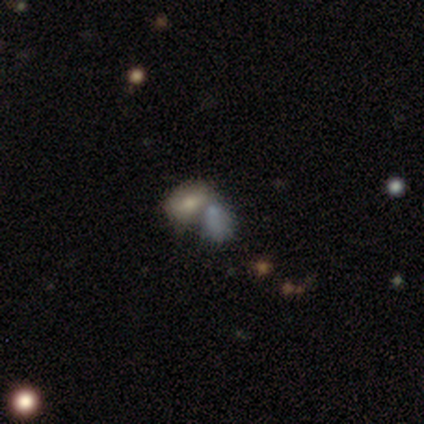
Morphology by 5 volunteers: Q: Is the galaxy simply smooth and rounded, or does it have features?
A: smooth — 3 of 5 (60%).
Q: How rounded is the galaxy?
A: in between — 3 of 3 (100%).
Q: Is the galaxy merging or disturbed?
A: merger — 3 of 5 (60%).